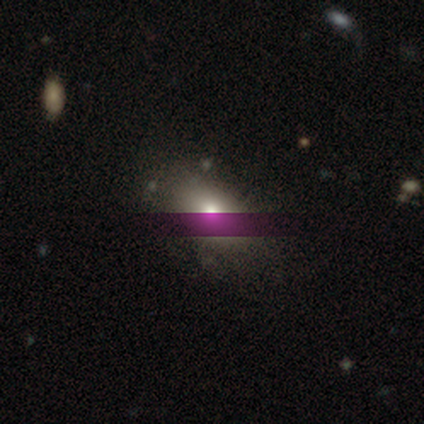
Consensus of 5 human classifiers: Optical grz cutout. It shows a smooth galaxy with no disk features (80%) that is in between round and cigar-shaped (75%). Merging: minor disturbance (60%).